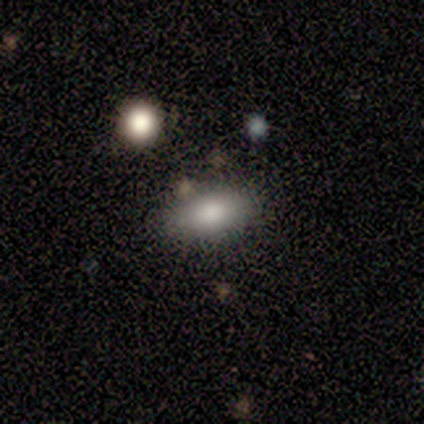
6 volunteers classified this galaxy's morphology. This appears to be a smooth galaxy with no disk features (100%) that is in between round and cigar-shaped (100%). Merging: none (83%).